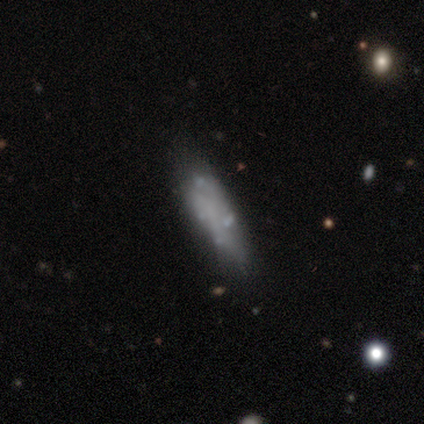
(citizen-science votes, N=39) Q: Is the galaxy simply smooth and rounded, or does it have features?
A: featured or disk — 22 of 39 (56%).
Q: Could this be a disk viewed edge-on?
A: no — 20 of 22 (91%).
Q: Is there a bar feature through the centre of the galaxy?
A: no — 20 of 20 (100%).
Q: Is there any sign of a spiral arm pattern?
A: no — 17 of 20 (85%).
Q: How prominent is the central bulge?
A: none — 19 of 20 (95%).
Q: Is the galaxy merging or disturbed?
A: none — 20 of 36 (56%).